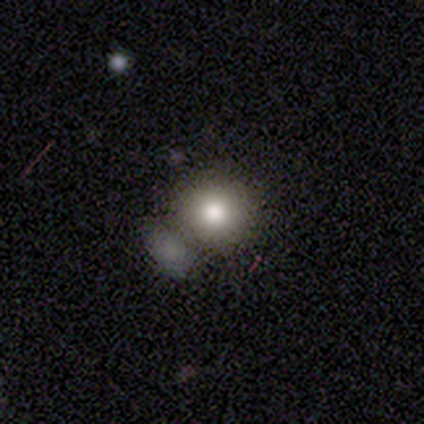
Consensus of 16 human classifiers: smooth-or-featured: smooth: 69% | featured or disk: 19% | star or artifact: 12%
  how-rounded: round: 91% | in between: 9% | cigar-shaped: 0%
  merging: none: 57% | merger: 21% | minor disturbance: 14% | major disturbance: 7%